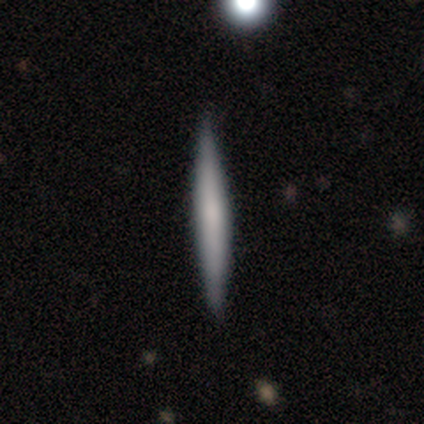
Smooth or featured? 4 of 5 (80%) said smooth. How rounded? 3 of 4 (75%) said cigar-shaped. Merging? 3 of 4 (75%) said none.